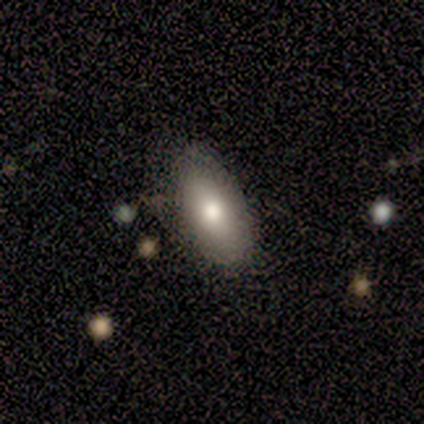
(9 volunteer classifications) smooth 56%, featured or disk 44%, star or artifact 0%. Down the decision tree: how rounded — in between (100%); merging — none (89%).